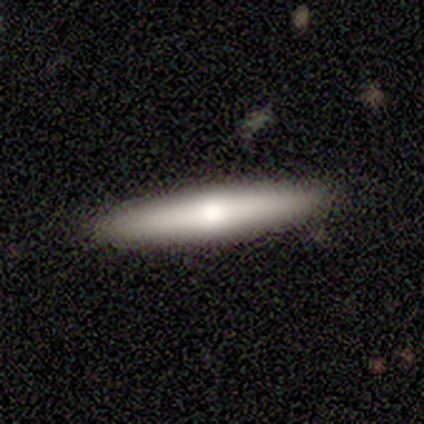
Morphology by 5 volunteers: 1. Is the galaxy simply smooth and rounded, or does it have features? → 40% smooth (tied), 40% featured or disk (tied), 20% star or artifact.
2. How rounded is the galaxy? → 100% cigar-shaped, 0% round, 0% in between.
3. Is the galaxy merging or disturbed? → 100% none, 0% minor disturbance, 0% major disturbance, 0% merger.